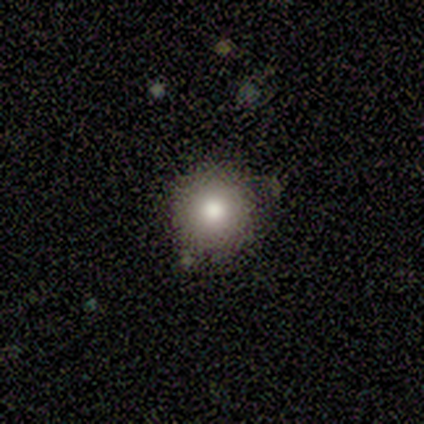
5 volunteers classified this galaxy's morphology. Q: Smooth or featured?
A: smooth (60%); runner-up: featured or disk (20%)
Q: How rounded?
A: round (100%)
Q: Merging?
A: none (100%)